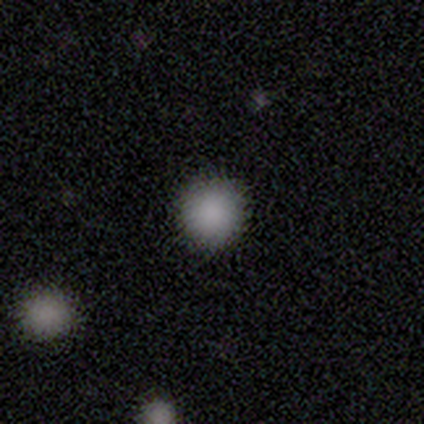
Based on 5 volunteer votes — Consensus on every question: smooth or featured — smooth (100%); how rounded — round (100%); merging — none (100%).